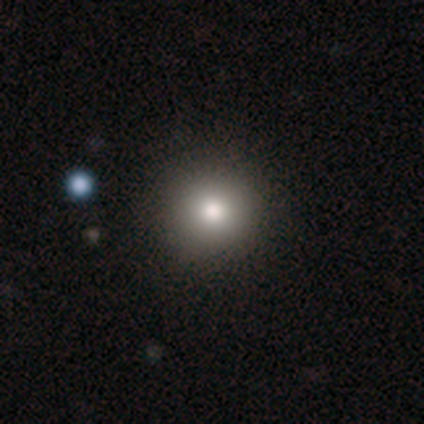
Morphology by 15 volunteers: type=smooth (80%); roundness=round (92%); merging=none (92%).